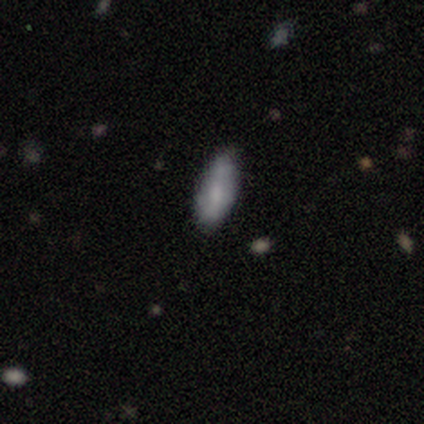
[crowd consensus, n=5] Morphology: type=smooth (60%); roundness=in between (100%); merging=minor disturbance (60%).